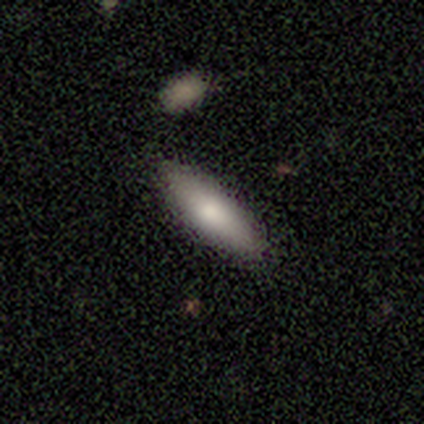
Morphology: type=smooth (100%); roundness=in between (80%); merging=none (100%).